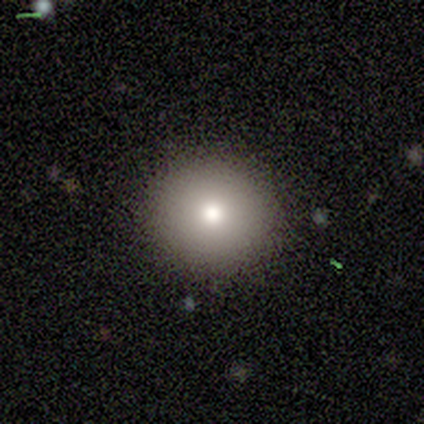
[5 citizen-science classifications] A smooth galaxy with no disk features (60%) that is round (100%).

Vote fractions:
- Smooth or featured? smooth: 60% / featured or disk: 20% / star or artifact: 20%
- How rounded? round: 100% / in between: 0% / cigar-shaped: 0%
- Merging? none: 100% / minor disturbance: 0% / major disturbance: 0% / merger: 0%